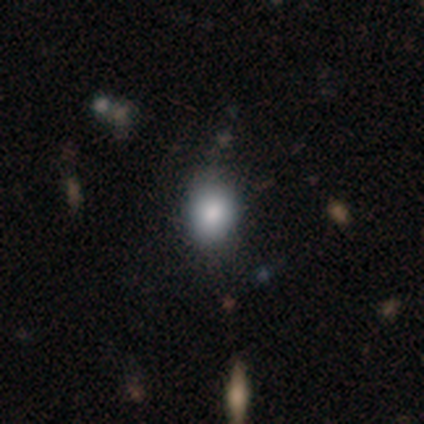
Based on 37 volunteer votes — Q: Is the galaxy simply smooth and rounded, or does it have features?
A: smooth — 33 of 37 (89%).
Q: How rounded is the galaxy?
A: in between — 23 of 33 (70%).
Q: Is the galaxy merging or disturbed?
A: none — 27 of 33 (82%).